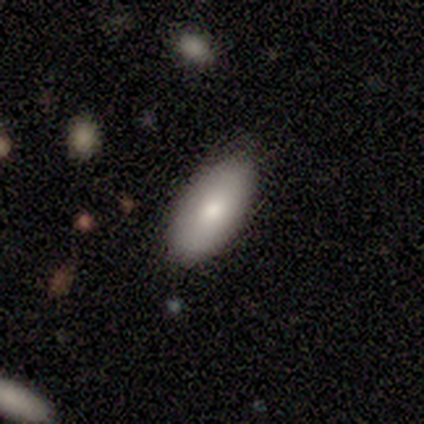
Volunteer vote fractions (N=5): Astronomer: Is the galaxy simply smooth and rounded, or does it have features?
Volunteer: featured or disk — 60% (runner-up: smooth, 40%).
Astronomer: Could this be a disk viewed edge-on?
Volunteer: yes — 67%.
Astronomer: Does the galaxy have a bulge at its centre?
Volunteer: rounded — 100%.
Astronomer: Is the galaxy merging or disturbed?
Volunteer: none — 60% (runner-up: minor disturbance, 40%).